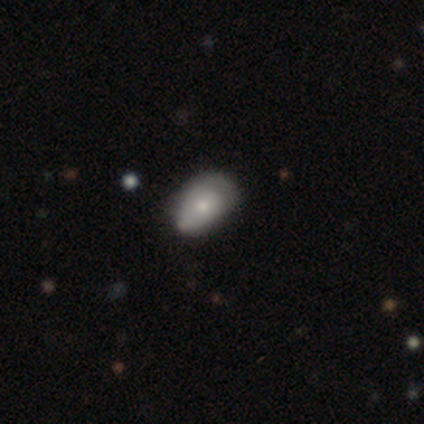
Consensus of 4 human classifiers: A featured or disk galaxy (50%) with no bar (100%), no spiral arms (100%) and a small central bulge (100%). Merging: none (67%).